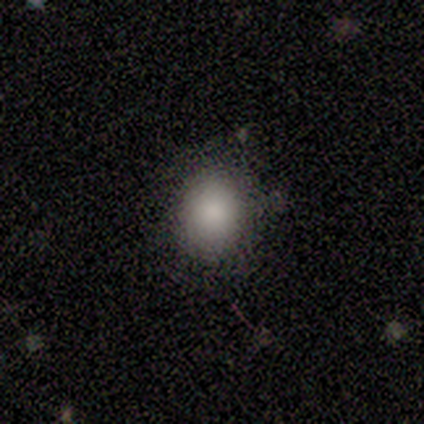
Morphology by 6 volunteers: smooth 83%, star or artifact 17%, featured or disk 0%. Down the decision tree: how rounded — round (80%); merging — none (100%).